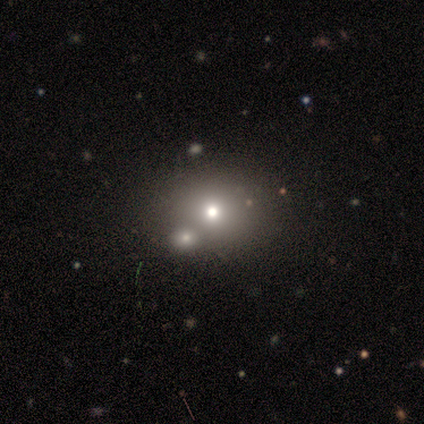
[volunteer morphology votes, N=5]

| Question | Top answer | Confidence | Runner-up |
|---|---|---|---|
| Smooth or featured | star or artifact | 60% | smooth (40%) |